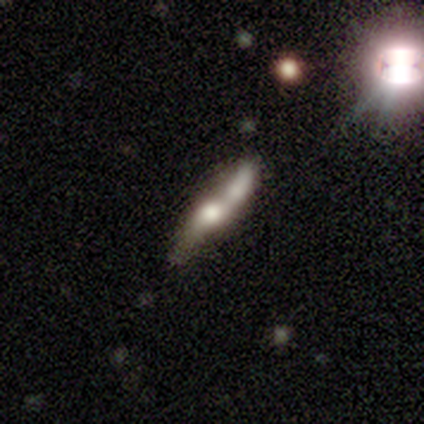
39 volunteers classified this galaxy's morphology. This appears to be a smooth galaxy with no disk features (46%) that is cigar-shaped (83%). Merging: merger (42%).